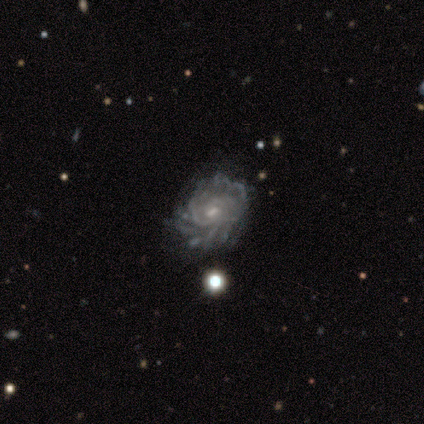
Morphology: type=featured or disk (92%); edge-on=no (100%); bar=weak (50%, tied with no); spiral arms=yes (91%); winding=tight (80%); arm count=can't tell (45%); bulge=small (50%); merging=none (62%).